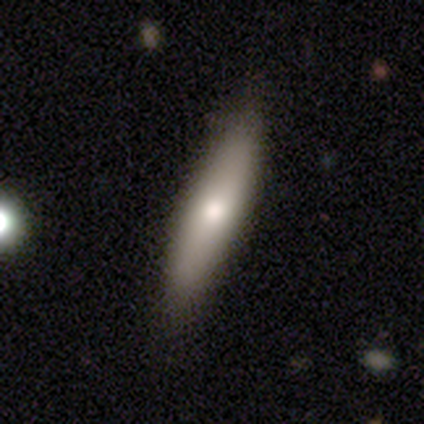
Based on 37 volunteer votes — Q: Smooth or featured?
A: smooth (76%); runner-up: featured or disk (22%)
Q: How rounded?
A: cigar-shaped (75%); runner-up: in between (25%)
Q: Merging?
A: none (81%); runner-up: minor disturbance (17%)